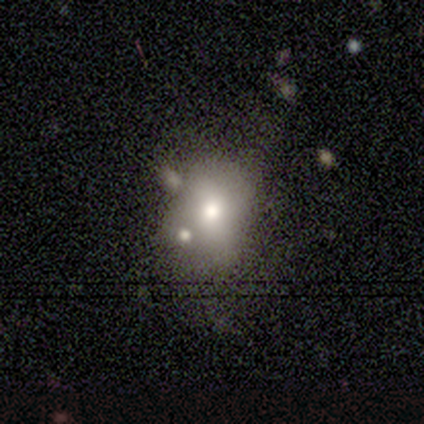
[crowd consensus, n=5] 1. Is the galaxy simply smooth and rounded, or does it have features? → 80% smooth, 20% star or artifact, 0% featured or disk.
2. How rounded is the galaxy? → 75% round, 25% in between, 0% cigar-shaped.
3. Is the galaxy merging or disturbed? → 50% none (tied), 50% minor disturbance (tied), 0% major disturbance, 0% merger.